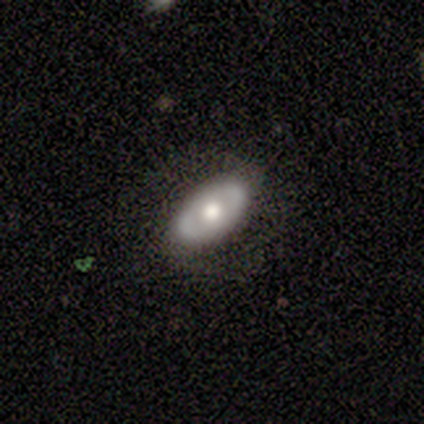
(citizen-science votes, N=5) Volunteers were most divided on "smooth or featured": featured or disk: 60%, smooth: 40%, star or artifact: 0%. More confident: edge-on disk — no (100%); bar — no (100%); spiral arms — no (100%); merging — none (100%); bulge size — moderate (67%).